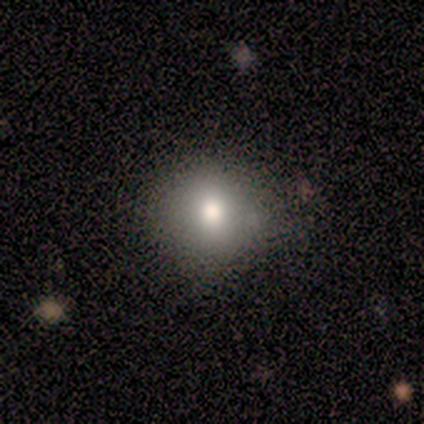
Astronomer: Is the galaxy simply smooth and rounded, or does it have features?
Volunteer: smooth — 80%.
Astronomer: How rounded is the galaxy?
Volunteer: round — 100%.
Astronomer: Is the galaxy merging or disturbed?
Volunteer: none — 75%.